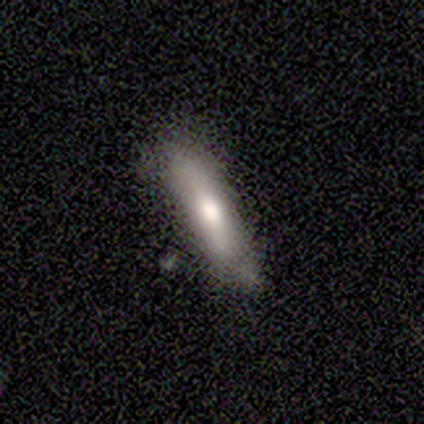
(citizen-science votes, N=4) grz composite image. It shows a featured or disk galaxy (50%) viewed edge-on (50%, tied with no) with a rounded central bulge (100%). Merging: none (67%).